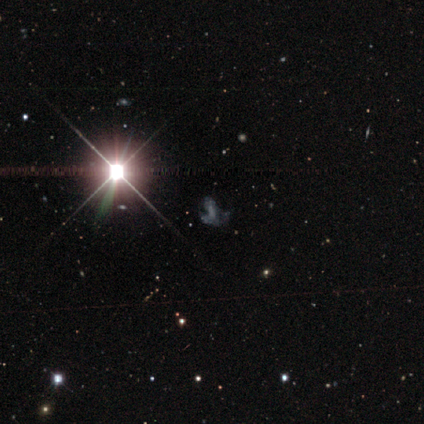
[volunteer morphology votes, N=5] smooth-or-featured: star or artifact: 100% | smooth: 0% | featured or disk: 0%